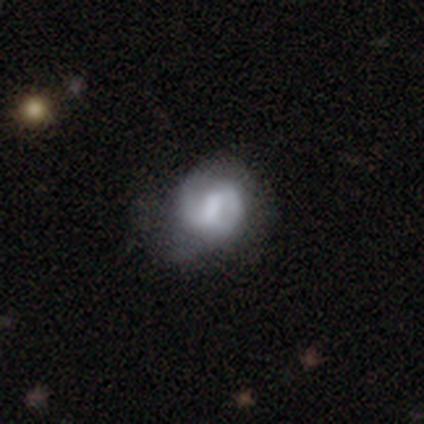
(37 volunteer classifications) Overall: featured or disk (59%; smooth 35%). Edge-on disk: no (100%). Bar: weak (73%). Spiral arms: yes (77%). Spiral arm count: 2 (88%). Spiral winding: medium (53%; tight 29%). Bulge size: moderate (32%, tied with small and none). Merging: none (57%; major disturbance 31%).